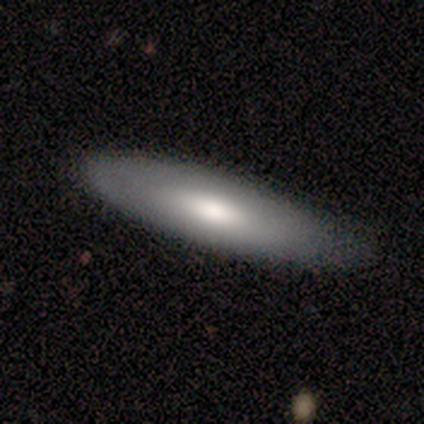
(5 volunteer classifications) Volunteers were most divided on "smooth or featured": smooth: 80%, featured or disk: 20%, star or artifact: 0%. More confident: how rounded — cigar-shaped (100%); merging — none (80%).